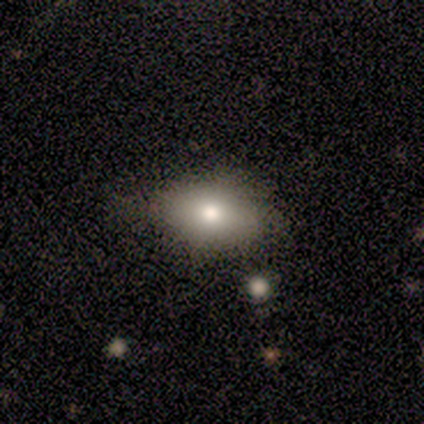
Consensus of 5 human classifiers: This is clearly a smooth galaxy (80%). How rounded: likely in between (75%). Merging: likely none (60%).